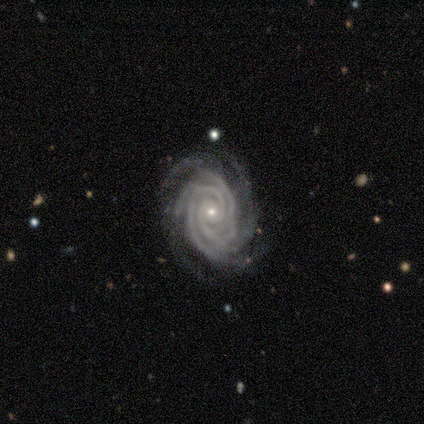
Smooth or featured? featured or disk (100%)
Edge-on disk? no (100%)
Bar? no (80%)
Spiral arms? yes (100%)
Spiral winding? tight (80%)
Spiral arm count? 2 (40%, tied with more than 4)
Bulge size? small (60%)
Merging? none (100%)